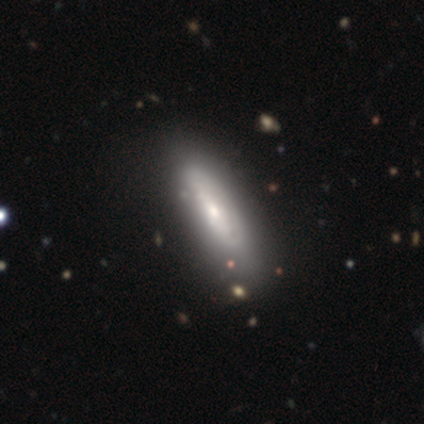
featured or disk 52%, smooth 43%, star or artifact 5%. Down the decision tree: edge-on disk — no (76%); bar — no (74%); spiral arms — yes (52%); spiral arm count — can't tell (81%); spiral winding — tight (62%); bulge size — moderate (52%); merging — none (32%).